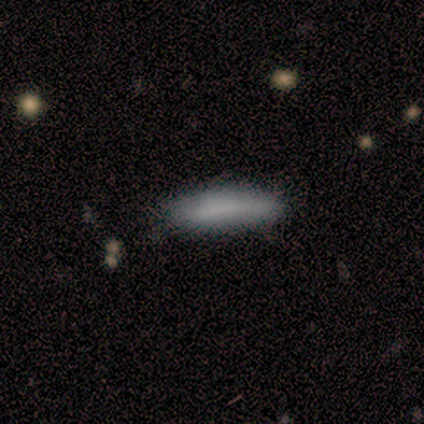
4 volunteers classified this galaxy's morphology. smooth-or-featured: smooth: 75% | featured or disk: 25% | star or artifact: 0%
  how-rounded: cigar-shaped: 100% | round: 0% | in between: 0%
  merging: none: 75% | minor disturbance: 25% | major disturbance: 0% | merger: 0%